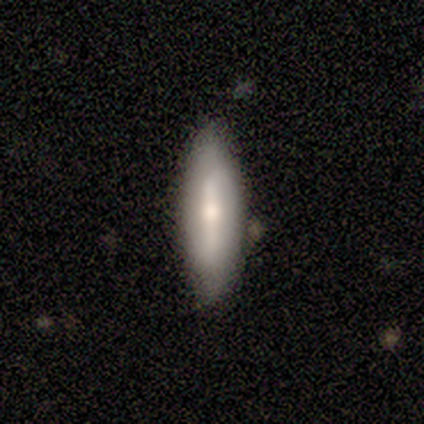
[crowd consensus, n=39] Smooth or featured?
  - featured or disk: 49% *
  - smooth: 46%
  - star or artifact: 5%
Edge-on disk?
  - yes: 53% *
  - no: 47%
Edge-on bulge?
  - rounded: 60% *
  - boxy: 20%
  - none: 20%
Merging?
  - none: 86% *
  - minor disturbance: 5%
  - merger: 5%
  - major disturbance: 3%